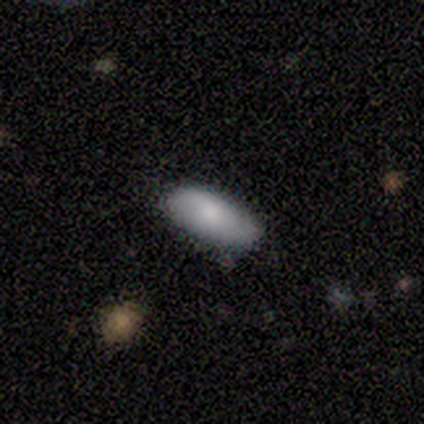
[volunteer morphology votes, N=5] This appears to be a smooth galaxy with no disk features (80%) that is in between round and cigar-shaped (75%). Merging: none (100%).